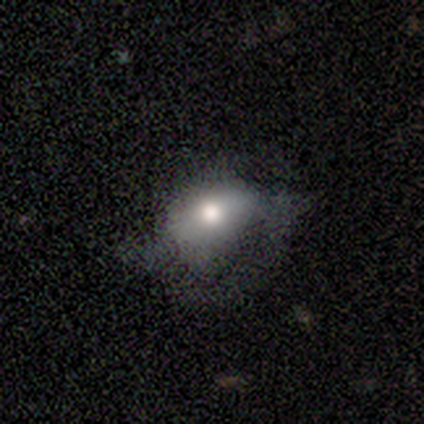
A smooth galaxy with no disk features (80%) that is in between round and cigar-shaped (75%). Merging: none (75%).